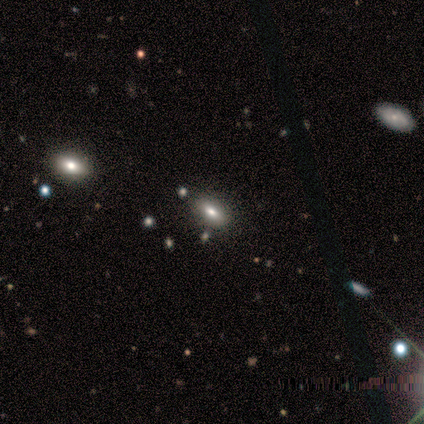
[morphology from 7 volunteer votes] smooth-or-featured: smooth: 100% | featured or disk: 0% | star or artifact: 0%
  how-rounded: in between: 86% | cigar-shaped: 14% | round: 0%
  merging: none: 86% | minor disturbance: 14% | major disturbance: 0% | merger: 0%